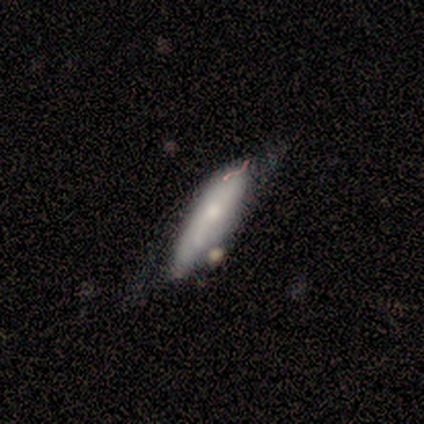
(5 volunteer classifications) smooth-or-featured: smooth: 100% | featured or disk: 0% | star or artifact: 0%
  how-rounded: in between: 60% | cigar-shaped: 40% | round: 0%
  merging: minor disturbance: 60% | none: 40% | major disturbance: 0% | merger: 0%